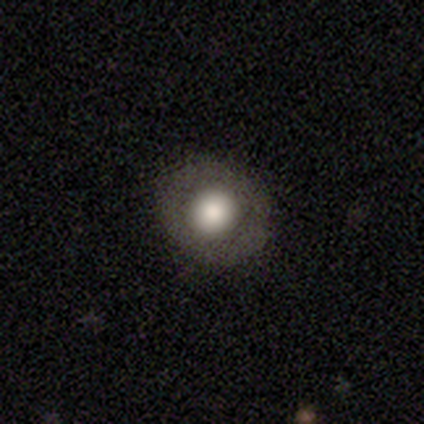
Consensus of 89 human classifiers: Smooth or featured?
  - smooth: 57% *
  - featured or disk: 33%
  - star or artifact: 10%
How rounded?
  - round: 86% *
  - in between: 14%
  - cigar-shaped: 0%
Merging?
  - none: 90% *
  - minor disturbance: 9%
  - major disturbance: 1%
  - merger: 0%